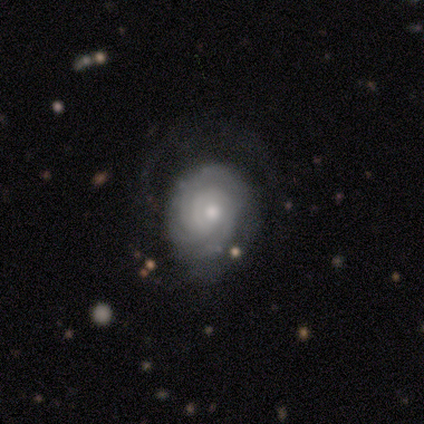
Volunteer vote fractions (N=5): This is clearly a featured or disk galaxy (80%). It is clearly not viewed edge-on (100%). Bar: likely no (75%). Spiral arm pattern: likely yes (75%). Spiral arm count: likely can't tell (67%). Spiral winding: clearly tight (100%). Central bulge: clearly moderate (100%). Merging: likely none (60%).